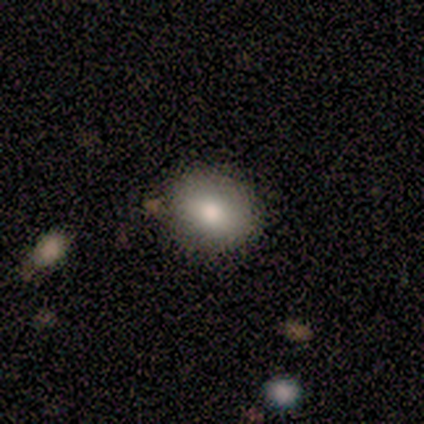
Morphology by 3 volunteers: A smooth galaxy with no disk features (67%) that is round (100%).

Vote fractions:
- Smooth or featured? smooth: 67% / star or artifact: 33% / featured or disk: 0%
- How rounded? round: 100% / in between: 0% / cigar-shaped: 0%
- Merging? none: 50% (tied) / minor disturbance: 50% (tied) / major disturbance: 0% / merger: 0%